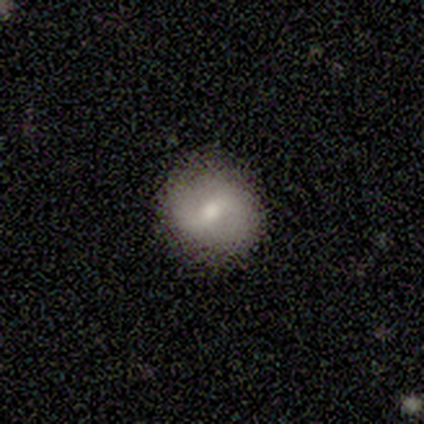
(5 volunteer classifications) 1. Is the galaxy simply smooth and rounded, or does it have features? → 40% smooth (tied), 40% featured or disk (tied), 20% star or artifact.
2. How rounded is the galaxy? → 100% round, 0% in between, 0% cigar-shaped.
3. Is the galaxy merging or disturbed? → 100% none, 0% minor disturbance, 0% major disturbance, 0% merger.